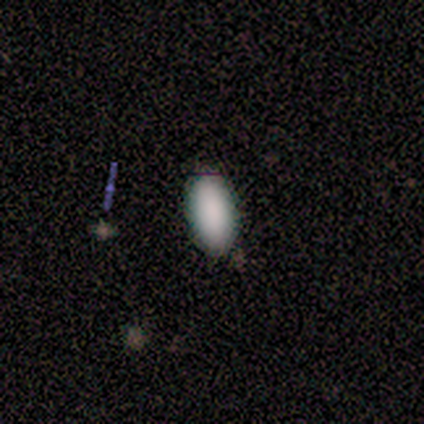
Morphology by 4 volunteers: Q: Smooth or featured?
A: smooth (100%)
Q: How rounded?
A: in between (75%); runner-up: round (25%)
Q: Merging?
A: none (100%)